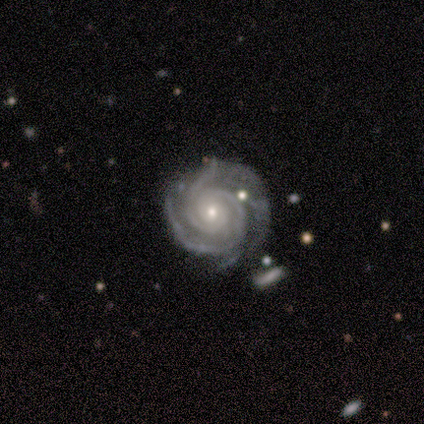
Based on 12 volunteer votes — This is clearly a featured or disk galaxy (100%). It is clearly not viewed edge-on (92%). Bar: clearly no (82%). Spiral arm pattern: clearly yes (100%). Spiral arm count: marginally 2 (36%, tied with 3). Spiral winding: clearly tight (100%). Central bulge: clearly small (82%). Merging: possibly none (58%).